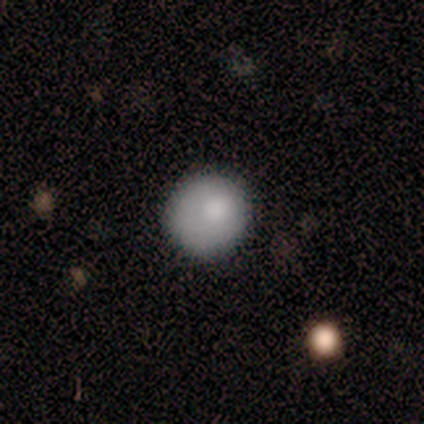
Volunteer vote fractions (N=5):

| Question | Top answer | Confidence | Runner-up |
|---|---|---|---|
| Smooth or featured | smooth | 100% | — |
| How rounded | round | 100% | — |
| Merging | none | 100% | — |